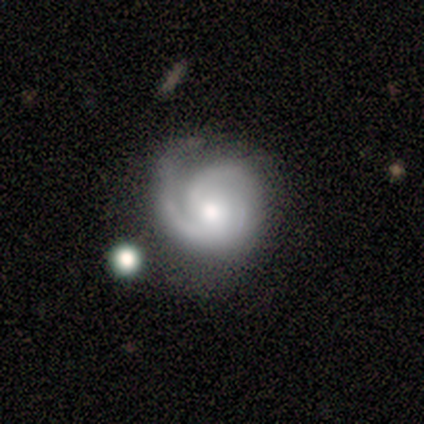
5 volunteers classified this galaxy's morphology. smooth_or_featured: featured or disk (p=0.80) [alt: star or artifact p=0.20]
disk_edge_on: no (p=1.00)
bar: no (p=1.00)
has_spiral_arms: yes (p=1.00)
spiral_winding: tight (p=0.50) [tied with: medium p=0.50]
spiral_arm_count: 3 (p=0.50) [alt: 2 p=0.25]
bulge_size: small (p=0.50) [alt: large p=0.25]
merging: minor disturbance (p=0.75) [alt: none p=0.25]